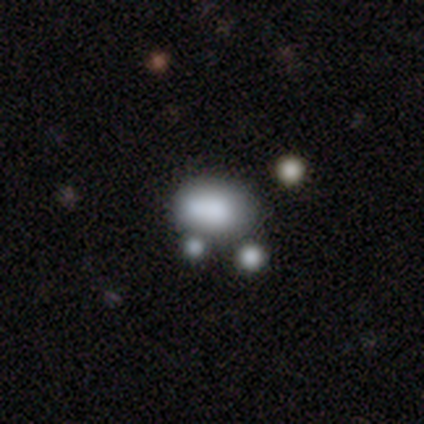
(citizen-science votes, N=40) Q: Smooth or featured?
A: smooth (78%); runner-up: featured or disk (15%)
Q: How rounded?
A: in between (71%); runner-up: round (29%)
Q: Merging?
A: none (41%); runner-up: merger (32%)